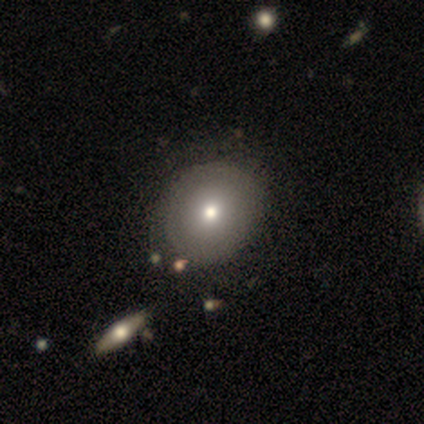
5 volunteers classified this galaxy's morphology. Smooth or featured?
  - smooth: 60% *
  - featured or disk: 40%
  - star or artifact: 0%
How rounded?
  - round: 67% *
  - in between: 33%
  - cigar-shaped: 0%
Merging?
  - minor disturbance: 80% *
  - none: 20%
  - major disturbance: 0%
  - merger: 0%